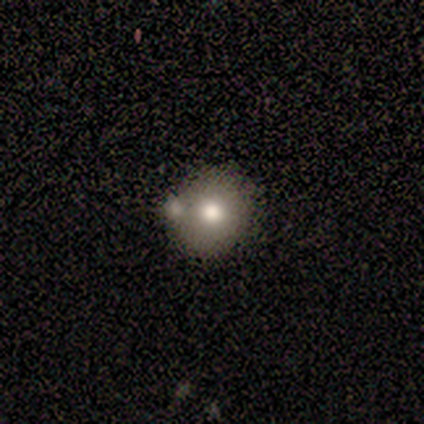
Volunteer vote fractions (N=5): Smooth or featured? smooth (80%)
How rounded? round (100%)
Merging? merger (50%)